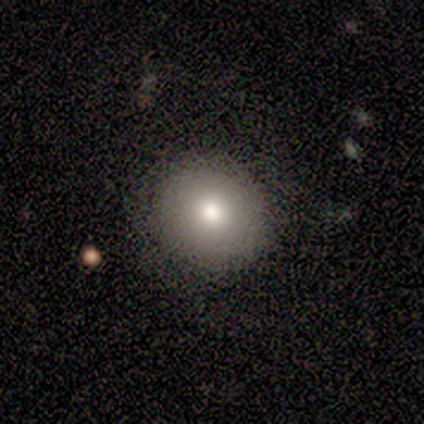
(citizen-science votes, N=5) smooth_or_featured: smooth (p=0.80) [alt: featured or disk p=0.20]
how_rounded: round (p=1.00)
merging: none (p=1.00)